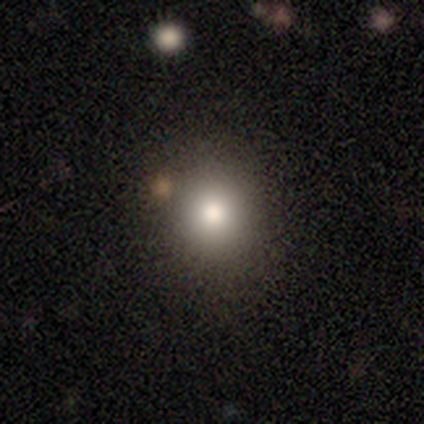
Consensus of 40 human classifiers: smooth 70%, featured or disk 15%, star or artifact 15%. Down the decision tree: how rounded — round (89%); merging — none (82%).